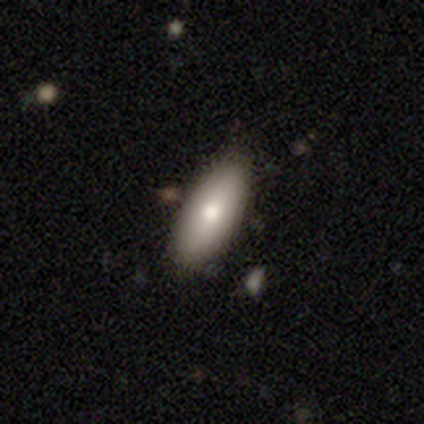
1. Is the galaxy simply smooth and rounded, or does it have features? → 80% smooth, 20% featured or disk, 0% star or artifact.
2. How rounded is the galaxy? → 75% in between, 25% cigar-shaped, 0% round.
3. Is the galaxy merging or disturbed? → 100% none, 0% minor disturbance, 0% major disturbance, 0% merger.